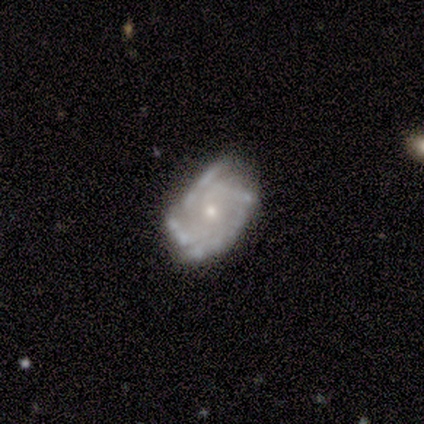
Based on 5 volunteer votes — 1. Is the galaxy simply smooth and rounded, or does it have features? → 100% featured or disk, 0% smooth, 0% star or artifact.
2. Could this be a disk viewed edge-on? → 100% no, 0% yes.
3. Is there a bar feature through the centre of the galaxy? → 60% no, 40% weak, 0% strong.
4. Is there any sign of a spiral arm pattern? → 100% yes, 0% no.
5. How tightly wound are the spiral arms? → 40% tight (tied), 40% medium (tied), 20% loose.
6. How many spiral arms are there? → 40% 2, 20% 3, 20% 4, 20% can't tell, 0% 1, 0% more than 4.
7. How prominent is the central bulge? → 60% moderate, 40% small, 0% dominant, 0% large, 0% none.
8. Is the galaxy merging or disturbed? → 60% none, 40% minor disturbance, 0% major disturbance, 0% merger.